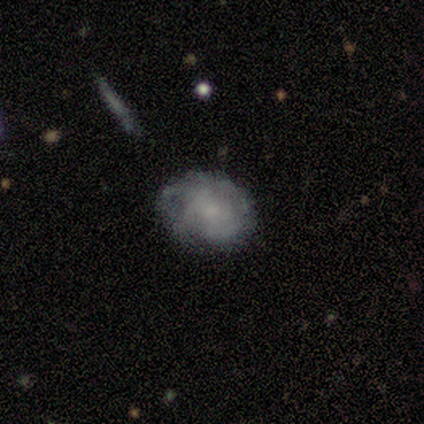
This is clearly a featured or disk galaxy (80%). It is clearly not viewed edge-on (100%). Bar: likely no (75%). Spiral arm pattern: clearly yes (100%). Spiral arm count: possibly can't tell (50%). Spiral winding: likely tight (75%). Central bulge: clearly small (100%). Merging: clearly none (100%).